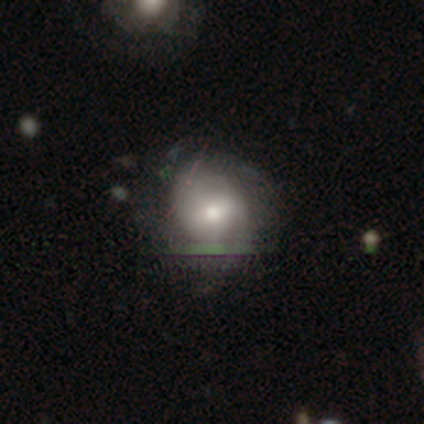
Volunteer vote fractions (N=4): A smooth galaxy with no disk features (50%) that is round (100%). Merging: none (67%).